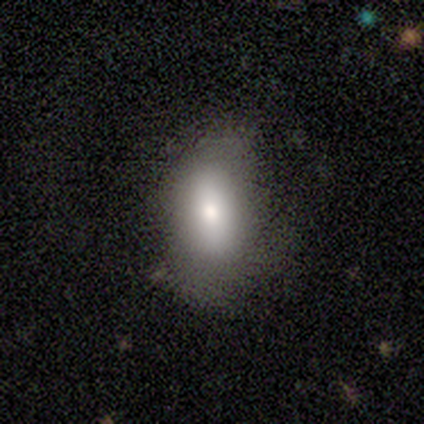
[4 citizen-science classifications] Smooth or featured? smooth (100%)
How rounded? in between (75%)
Merging? none (50%, tied with minor disturbance)